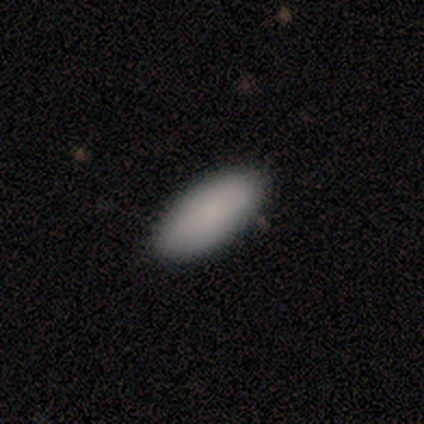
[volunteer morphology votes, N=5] smooth-or-featured: smooth: 100% | featured or disk: 0% | star or artifact: 0%
  how-rounded: in between: 100% | round: 0% | cigar-shaped: 0%
  merging: none: 100% | minor disturbance: 0% | major disturbance: 0% | merger: 0%